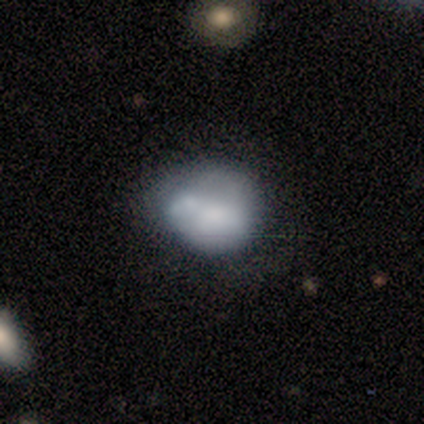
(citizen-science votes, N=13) This appears to be a smooth galaxy with no disk features (62%) that is round (100%). Merging: none (46%).